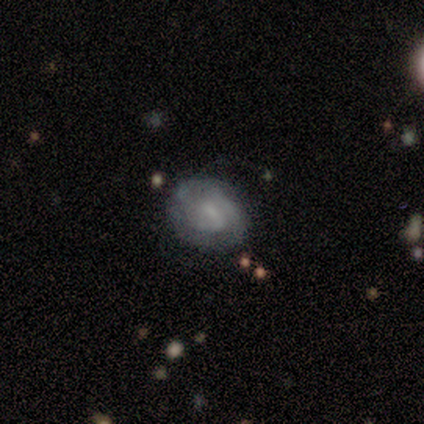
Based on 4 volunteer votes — Morphology: type=featured or disk (75%); edge-on=no (100%); bar=weak (67%); spiral arms=yes (100%); winding=tight (67%); arm count=2 (33%, tied with 3 and can't tell); bulge=none (67%); merging=minor disturbance (50%).